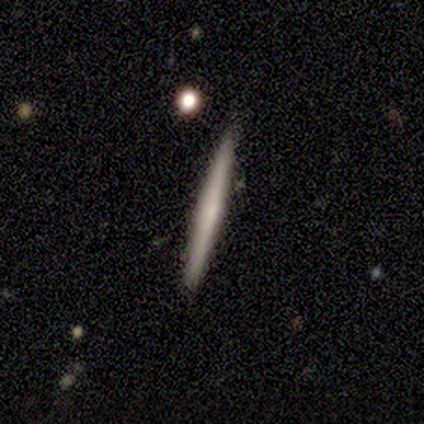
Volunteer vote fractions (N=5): Morphology: type=smooth (60%); roundness=cigar-shaped (100%); merging=none (100%).